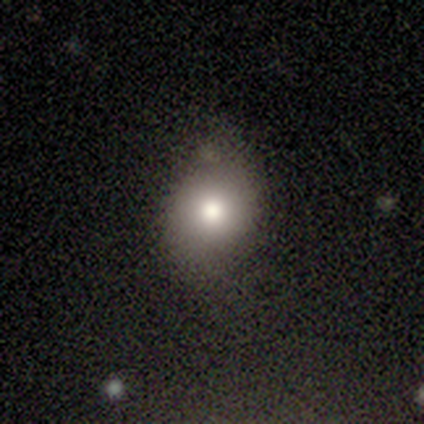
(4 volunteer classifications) This appears to be a smooth galaxy with no disk features (100%) that is round (75%). Merging: none (50%).